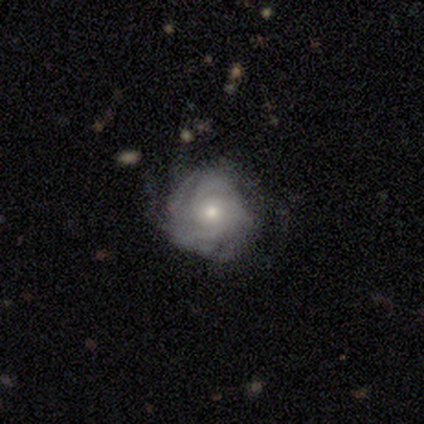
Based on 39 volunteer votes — featured or disk 72%, smooth 21%, star or artifact 8%. Down the decision tree: edge-on disk — no (96%); bar — no (81%); spiral arms — yes (85%); spiral arm count — 4 (30%); spiral winding — tight (87%); bulge size — small (52%); merging — none (72%).